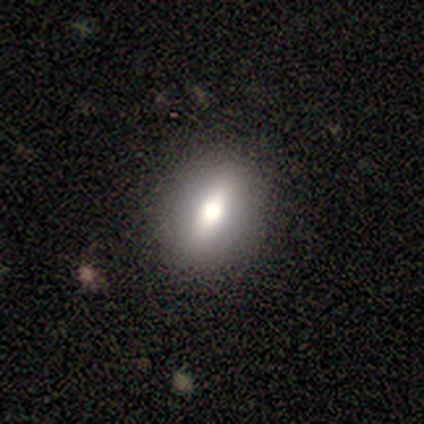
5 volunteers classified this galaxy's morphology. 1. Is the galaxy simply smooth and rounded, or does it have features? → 60% smooth, 40% star or artifact, 0% featured or disk.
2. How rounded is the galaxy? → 67% cigar-shaped, 33% round, 0% in between.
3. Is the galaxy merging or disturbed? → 67% none, 33% major disturbance, 0% minor disturbance, 0% merger.